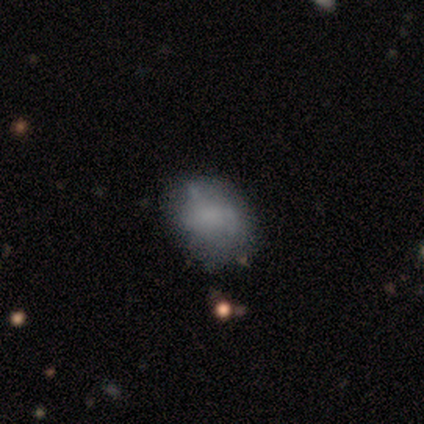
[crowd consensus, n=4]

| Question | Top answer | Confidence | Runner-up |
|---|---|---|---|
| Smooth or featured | smooth | 50% | tied: featured or disk (50%) |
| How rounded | in between | 100% | — |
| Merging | none | 75% | minor disturbance (25%) |